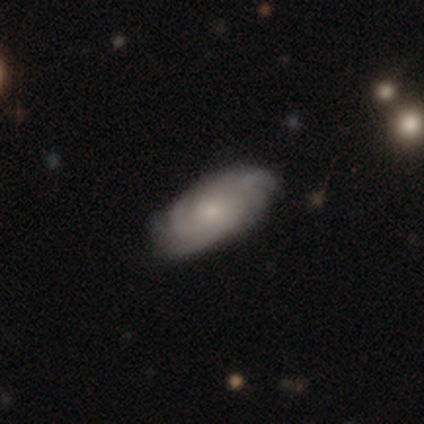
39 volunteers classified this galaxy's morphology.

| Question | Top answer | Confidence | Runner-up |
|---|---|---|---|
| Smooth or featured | featured or disk | 77% | smooth (23%) |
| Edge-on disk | no | 93% | yes (7%) |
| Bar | no | 71% | weak (21%) |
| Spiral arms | yes | 93% | no (7%) |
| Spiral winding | tight | 54% | medium (38%) |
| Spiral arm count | can't tell | 38% | 2 (23%) |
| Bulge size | small | 64% | none (21%) |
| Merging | none | 85% | minor disturbance (10%) |